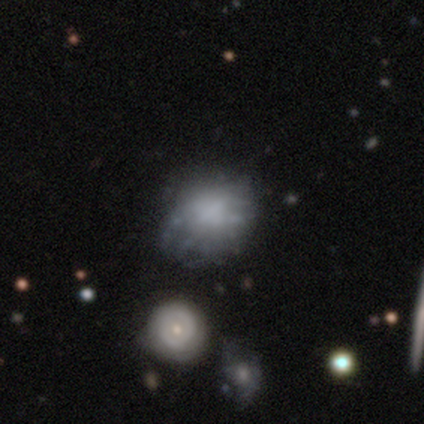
Smooth or featured?
  - featured or disk: 51% *
  - smooth: 41%
  - star or artifact: 8%
Edge-on disk?
  - no: 100% *
  - yes: 0%
Bar?
  - no: 95% *
  - weak: 5%
  - strong: 0%
Spiral arms?
  - no: 90% *
  - yes: 10%
Bulge size?
  - none: 75% *
  - small: 15%
  - large: 5%
  - moderate: 5%
  - dominant: 0%
Merging?
  - none: 39% *
  - minor disturbance: 19%
  - merger: 14%
  - major disturbance: 6%